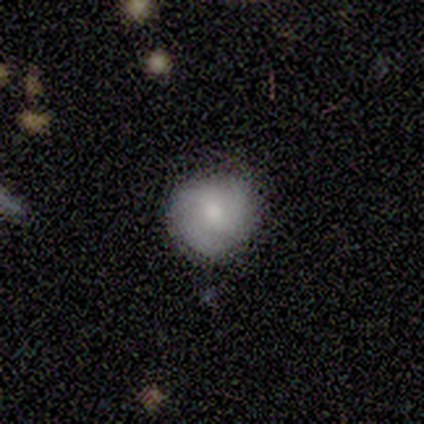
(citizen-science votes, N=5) This appears to be a smooth galaxy with no disk features (60%) that is round (100%). Merging: none (75%).